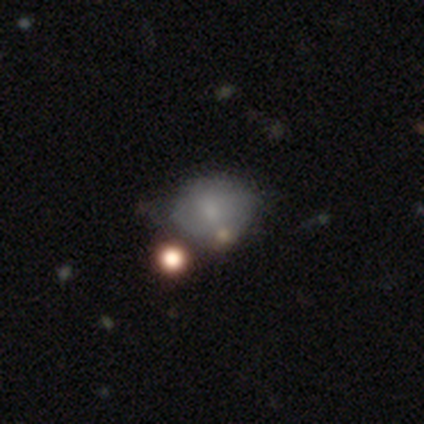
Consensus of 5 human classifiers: This appears to be a smooth galaxy with no disk features (60%) that is round (67%). Merging: none (50%).